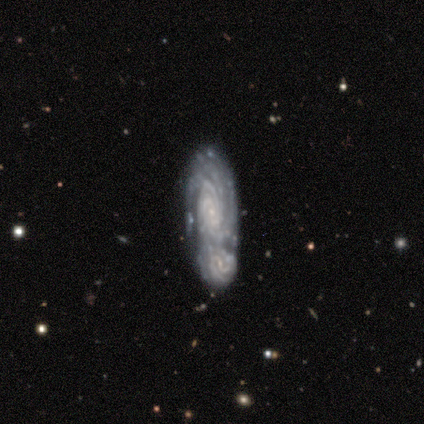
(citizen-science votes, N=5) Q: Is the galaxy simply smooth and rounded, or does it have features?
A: featured or disk — 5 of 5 (100%).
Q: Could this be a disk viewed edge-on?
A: no — 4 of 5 (80%).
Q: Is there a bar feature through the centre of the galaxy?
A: weak — 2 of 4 (50%, tied with no).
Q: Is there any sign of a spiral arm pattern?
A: yes — 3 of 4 (75%).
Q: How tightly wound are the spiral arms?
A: tight — 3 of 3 (100%).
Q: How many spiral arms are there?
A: can't tell — 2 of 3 (67%).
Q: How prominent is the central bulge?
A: small — 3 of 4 (75%).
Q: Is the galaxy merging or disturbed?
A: merger — 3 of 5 (60%).